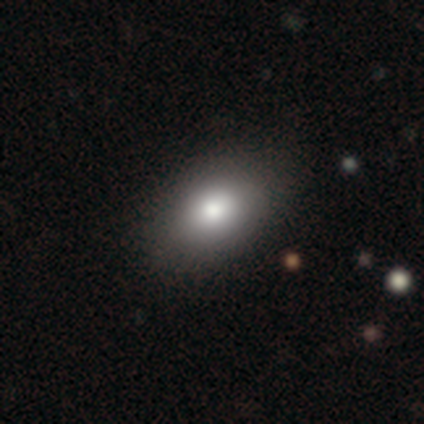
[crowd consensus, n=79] smooth-or-featured: smooth: 86% | featured or disk: 8% | star or artifact: 6%
  how-rounded: in between: 90% | round: 10% | cigar-shaped: 0%
  merging: none: 46% | minor disturbance: 5% | major disturbance: 0% | merger: 0%